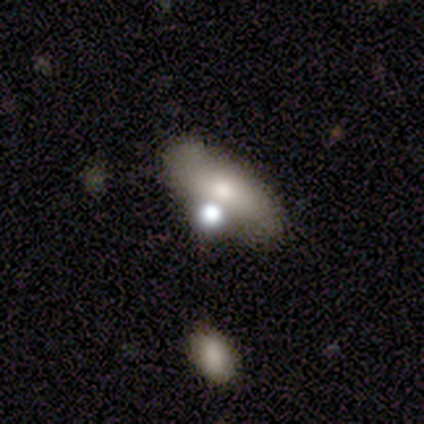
Smooth or featured? 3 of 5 (60%) said smooth. How rounded? 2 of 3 (67%) said in between. Merging? 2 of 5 (40%, tied with minor disturbance) said none.